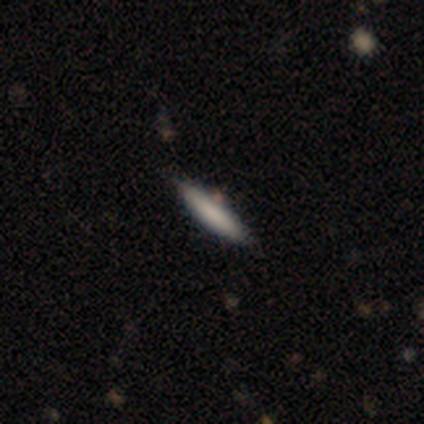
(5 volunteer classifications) smooth_or_featured: smooth (p=0.60) [alt: featured or disk p=0.20]
how_rounded: cigar-shaped (p=0.67) [alt: in between p=0.33]
merging: none (p=1.00)